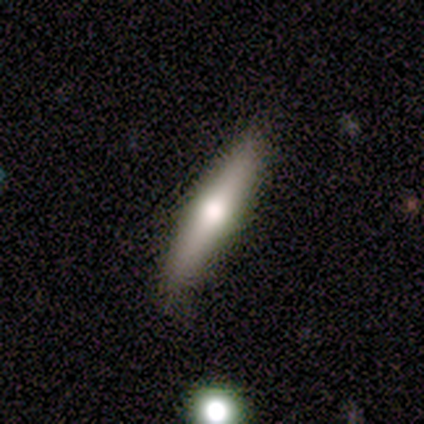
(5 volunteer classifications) Smooth or featured? featured or disk (40%, tied with star or artifact)
Edge-on disk? yes (100%)
Edge-on bulge? rounded (100%)
Merging? minor disturbance (67%)